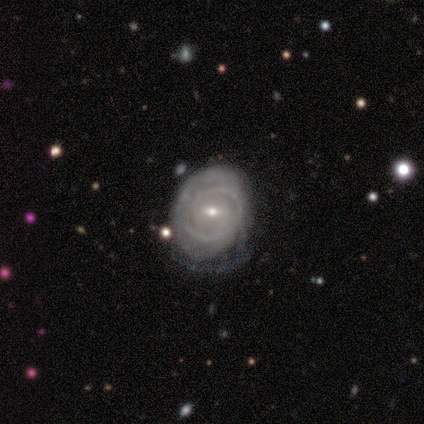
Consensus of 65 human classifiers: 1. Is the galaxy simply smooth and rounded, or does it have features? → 77% featured or disk, 15% smooth, 8% star or artifact.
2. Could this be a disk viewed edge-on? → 98% no, 2% yes.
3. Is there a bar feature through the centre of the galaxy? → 65% weak, 31% no, 4% strong.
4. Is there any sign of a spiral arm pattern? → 82% yes, 18% no.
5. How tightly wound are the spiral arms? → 75% tight, 20% medium, 5% loose.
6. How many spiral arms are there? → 65% 2, 18% can't tell, 10% 4, 8% 3, 0% 1, 0% more than 4.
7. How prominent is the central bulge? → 65% small, 35% moderate, 0% dominant, 0% large, 0% none.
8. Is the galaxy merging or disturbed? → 42% none, 20% minor disturbance, 5% major disturbance, 2% merger.